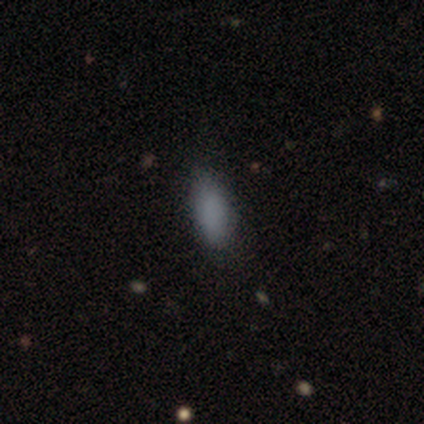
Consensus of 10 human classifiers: Q: Smooth or featured?
A: smooth (70%); runner-up: featured or disk (20%)
Q: How rounded?
A: in between (100%)
Q: Merging?
A: none (100%)